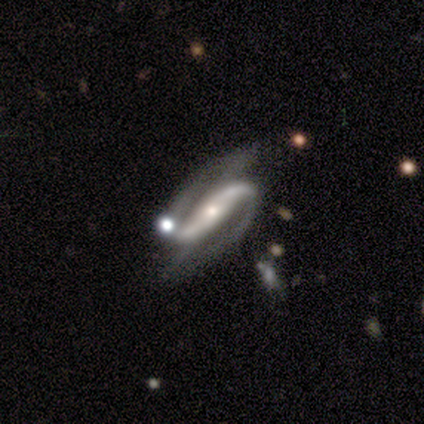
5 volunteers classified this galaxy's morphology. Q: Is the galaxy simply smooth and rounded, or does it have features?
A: featured or disk — 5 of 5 (100%).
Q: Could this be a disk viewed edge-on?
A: no — 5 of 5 (100%).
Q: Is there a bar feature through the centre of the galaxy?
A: strong — 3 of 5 (60%).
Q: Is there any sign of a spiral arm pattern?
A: yes — 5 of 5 (100%).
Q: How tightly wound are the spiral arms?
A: tight — 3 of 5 (60%).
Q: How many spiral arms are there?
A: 2 — 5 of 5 (100%).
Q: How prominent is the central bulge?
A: small — 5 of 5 (100%).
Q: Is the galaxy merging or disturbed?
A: none — 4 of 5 (80%).